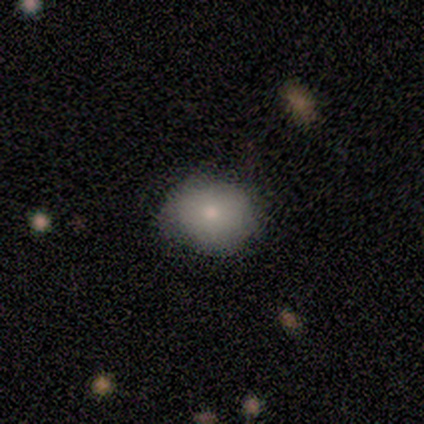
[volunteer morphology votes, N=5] Smooth or featured?
  - smooth: 80% *
  - star or artifact: 20%
  - featured or disk: 0%
How rounded?
  - round: 75% *
  - in between: 25%
  - cigar-shaped: 0%
Merging?
  - none: 50% *
  - minor disturbance: 25%
  - merger: 25%
  - major disturbance: 0%